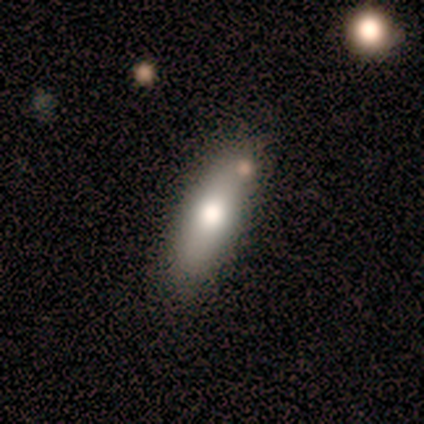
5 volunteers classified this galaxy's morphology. Smooth or featured?
  - smooth: 60% *
  - featured or disk: 20%
  - star or artifact: 20%
How rounded?
  - in between: 67% *
  - cigar-shaped: 33%
  - round: 0%
Merging?
  - none: 75% *
  - minor disturbance: 25%
  - major disturbance: 0%
  - merger: 0%